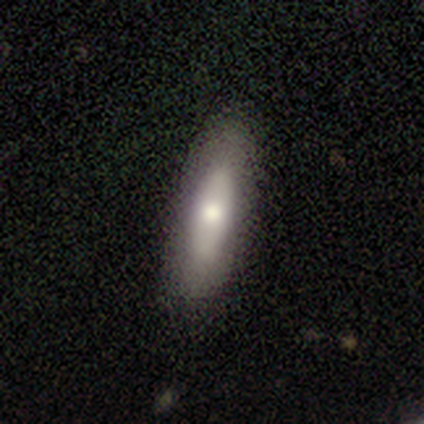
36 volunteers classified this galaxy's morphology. type=smooth (61%); roundness=cigar-shaped (68%); merging=none (71%).